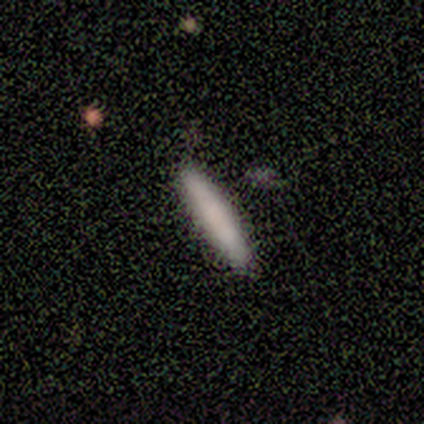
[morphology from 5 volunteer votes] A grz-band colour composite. It shows a smooth galaxy with no disk features (60%) that is cigar-shaped (100%). Merging: none (100%).